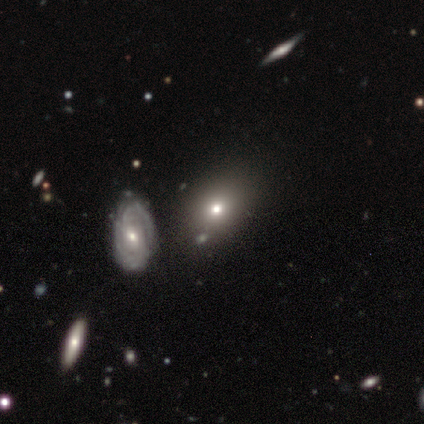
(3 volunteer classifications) Morphology: type=smooth (100%); roundness=in between (100%); merging=minor disturbance (67%).